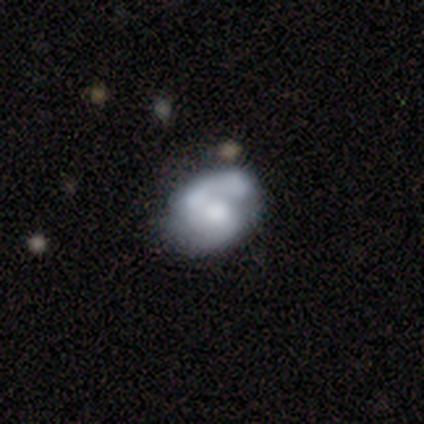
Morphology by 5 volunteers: Smooth or featured? 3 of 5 (60%) said smooth. How rounded? 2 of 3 (67%) said in between. Merging? 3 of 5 (60%) said none.